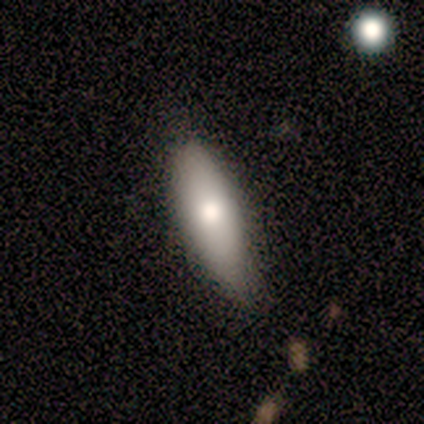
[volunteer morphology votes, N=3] A smooth galaxy with no disk features (67%) that is in between round and cigar-shaped (100%).

Vote fractions:
- Smooth or featured? smooth: 67% / featured or disk: 33% / star or artifact: 0%
- How rounded? in between: 100% / round: 0% / cigar-shaped: 0%
- Merging? minor disturbance: 67% / none: 33% / major disturbance: 0% / merger: 0%